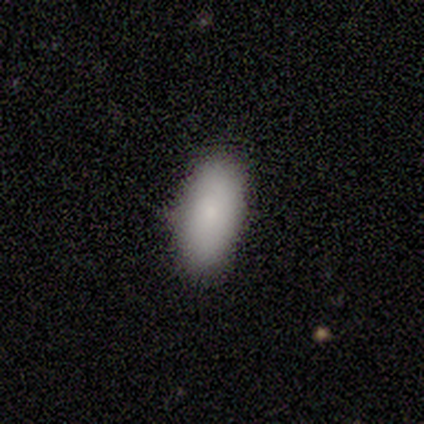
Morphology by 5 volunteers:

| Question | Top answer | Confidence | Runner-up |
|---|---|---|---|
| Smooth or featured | smooth | 80% | star or artifact (20%) |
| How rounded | in between | 100% | — |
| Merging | none | 100% | — |